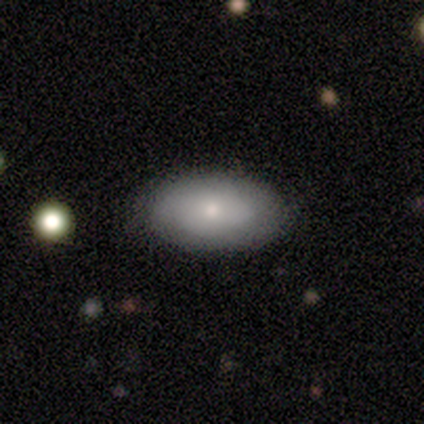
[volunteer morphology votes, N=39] This appears to be a smooth galaxy with no disk features (67%) that is in between round and cigar-shaped (88%). Merging: none (76%).